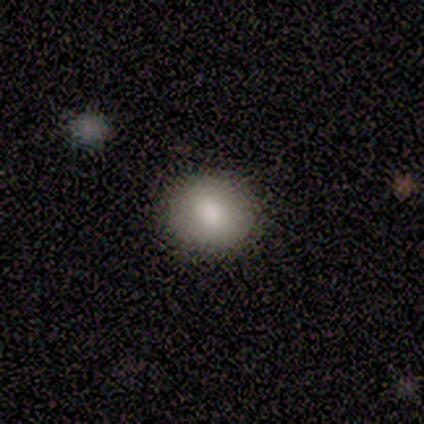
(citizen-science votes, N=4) smooth-or-featured: smooth: 100% | featured or disk: 0% | star or artifact: 0%
  how-rounded: round: 50% (tied) | in between: 50% (tied) | cigar-shaped: 0%
  merging: none: 100% | minor disturbance: 0% | major disturbance: 0% | merger: 0%